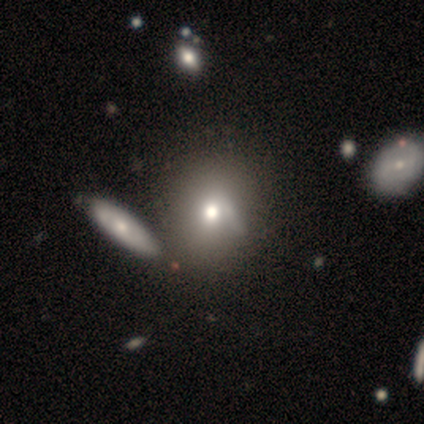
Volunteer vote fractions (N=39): smooth_or_featured: smooth (p=0.74) [alt: featured or disk p=0.18]
how_rounded: round (p=0.66) [alt: in between p=0.34]
merging: none (p=0.39) [alt: merger p=0.36]